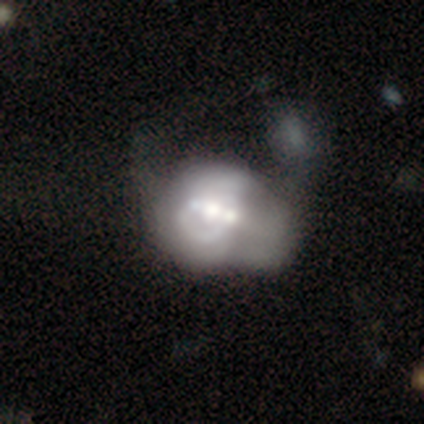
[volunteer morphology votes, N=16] A featured or disk galaxy (75%) with no bar (50%), no spiral arms (75%) and a large central bulge (50%).

Vote fractions:
- Smooth or featured? featured or disk: 75% / smooth: 19% / star or artifact: 6%
- Edge-on disk? no: 100% / yes: 0%
- Bar? no: 50% / strong: 25% / weak: 25%
- Spiral arms? no: 75% / yes: 25%
- Bulge size? large: 50% / moderate: 42% / small: 8% / dominant: 0% / none: 0%
- Merging? merger: 40% / major disturbance: 27% / minor disturbance: 20% / none: 13%